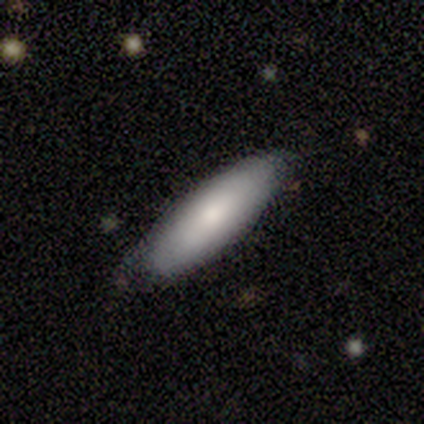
Smooth or featured: smooth — 100%
How rounded: cigar-shaped — 60% (in between — 40%)
Merging: none — 80% (minor disturbance — 20%)